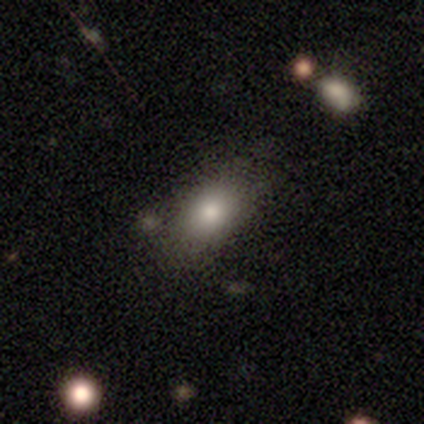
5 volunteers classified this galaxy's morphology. smooth_or_featured: smooth (p=0.60) [alt: featured or disk p=0.20]
how_rounded: in between (p=0.67) [alt: round p=0.33]
merging: none (p=0.75) [alt: minor disturbance p=0.25]